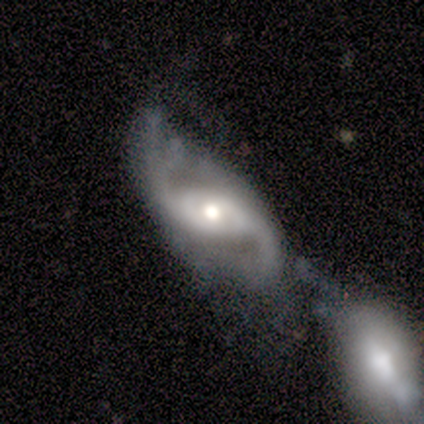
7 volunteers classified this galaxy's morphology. A featured or disk galaxy (100%) with no bar (71%), 2 (100%) loose (86%) spiral arms (100%) and a moderate central bulge (86%). Merging: none (43%).